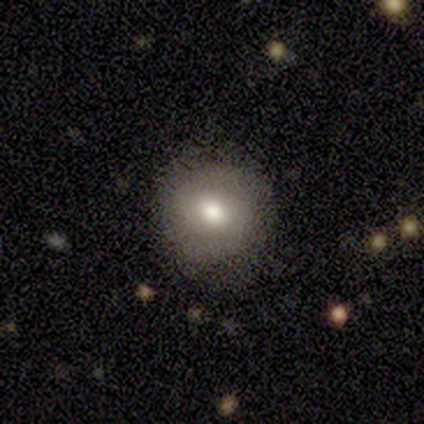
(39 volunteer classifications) Q: Smooth or featured?
A: smooth (64%); runner-up: featured or disk (28%)
Q: How rounded?
A: round (80%); runner-up: in between (20%)
Q: Merging?
A: none (83%); runner-up: minor disturbance (11%)